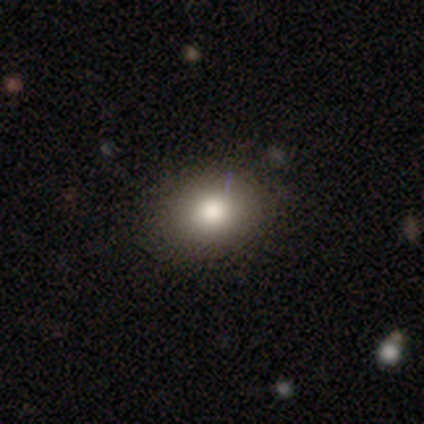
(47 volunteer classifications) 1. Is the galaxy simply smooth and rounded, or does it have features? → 79% smooth, 15% star or artifact, 6% featured or disk.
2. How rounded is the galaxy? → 51% round, 49% in between, 0% cigar-shaped.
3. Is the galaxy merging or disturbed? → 78% none, 15% minor disturbance, 8% major disturbance, 0% merger.